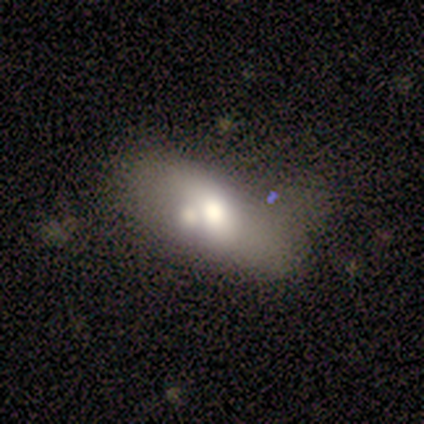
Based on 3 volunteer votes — A smooth galaxy with no disk features (67%) that is in between round and cigar-shaped (100%). Merging: none (33%, tied with minor disturbance and merger).